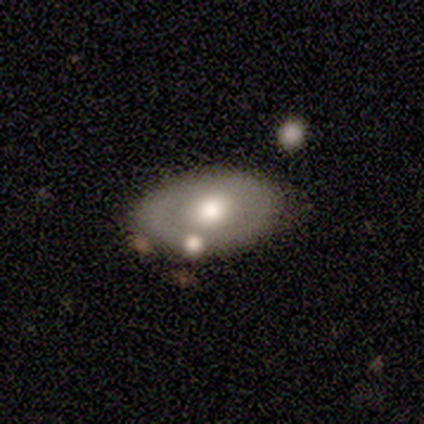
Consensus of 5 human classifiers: This is clearly a smooth galaxy (100%). How rounded: clearly in between (100%). Merging: clearly none (80%).